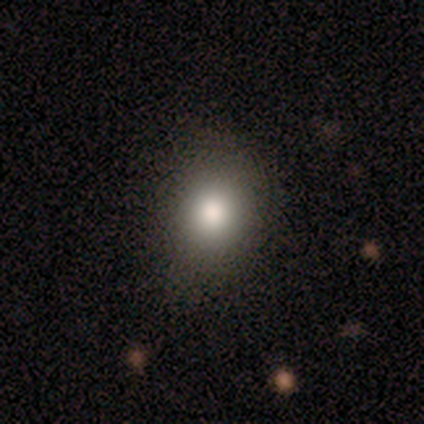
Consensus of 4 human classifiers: Morphology: type=smooth (100%); roundness=round (75%); merging=none (75%).